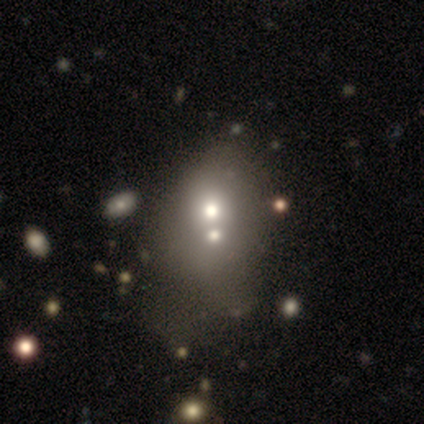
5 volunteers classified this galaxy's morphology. A smooth galaxy with no disk features (80%) that is round (50%, tied with in between). Merging: merger (75%).